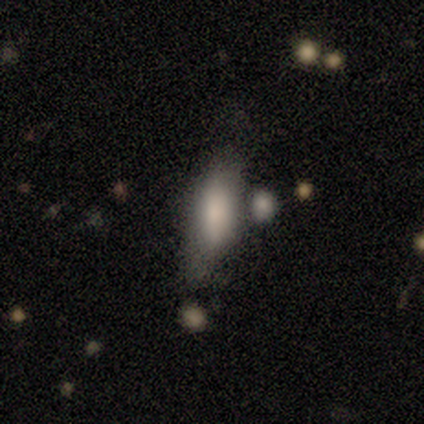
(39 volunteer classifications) This is clearly a smooth galaxy (82%). How rounded: likely in between (66%). Merging: marginally none (42%).